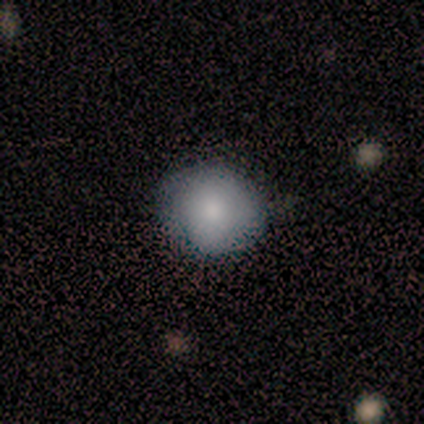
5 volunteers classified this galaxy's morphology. Q: Smooth or featured?
A: smooth (40%); tied with: featured or disk (40%)
Q: How rounded?
A: round (100%)
Q: Merging?
A: none (100%)